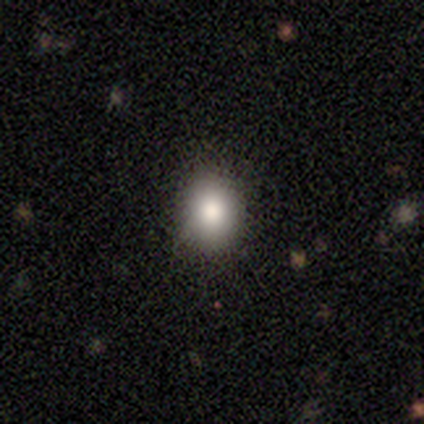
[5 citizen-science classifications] A smooth galaxy with no disk features (100%) that is round (80%). Merging: none (100%).